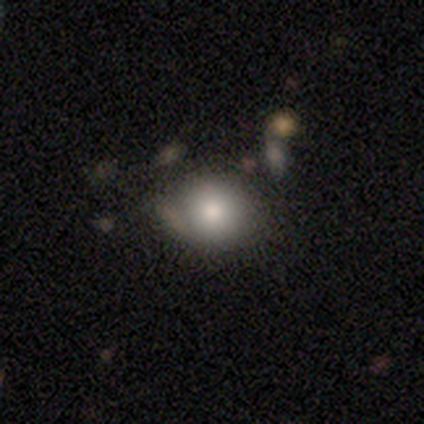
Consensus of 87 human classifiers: Smooth or featured? 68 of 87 (78%) said smooth. How rounded? 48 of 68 (71%) said round. Merging? 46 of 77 (60%) said none.